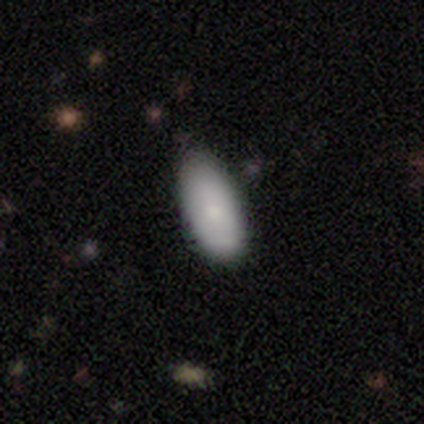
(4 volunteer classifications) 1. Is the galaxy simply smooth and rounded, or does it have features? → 100% smooth, 0% featured or disk, 0% star or artifact.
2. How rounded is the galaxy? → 100% in between, 0% round, 0% cigar-shaped.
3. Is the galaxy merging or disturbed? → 50% none (tied), 50% minor disturbance (tied), 0% major disturbance, 0% merger.